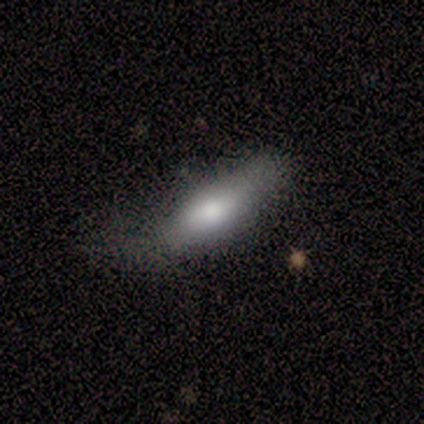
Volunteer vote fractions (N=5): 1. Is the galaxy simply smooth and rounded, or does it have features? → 60% smooth, 40% featured or disk, 0% star or artifact.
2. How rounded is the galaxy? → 67% cigar-shaped, 33% in between, 0% round.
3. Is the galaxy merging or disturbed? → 60% none, 40% minor disturbance, 0% major disturbance, 0% merger.